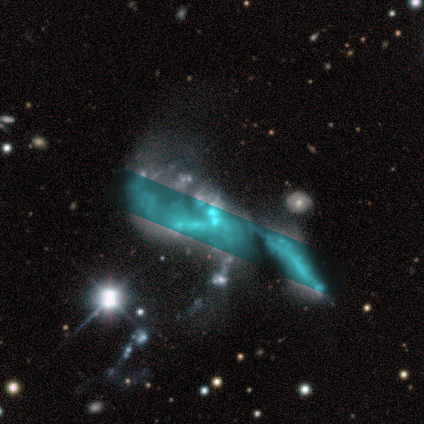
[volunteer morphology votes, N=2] Smooth or featured?
  - smooth: 50% * (tied)
  - star or artifact: 50% * (tied)
  - featured or disk: 0%
How rounded?
  - in between: 100% *
  - round: 0%
  - cigar-shaped: 0%
Merging?
  - major disturbance: 100% *
  - none: 0%
  - minor disturbance: 0%
  - merger: 0%